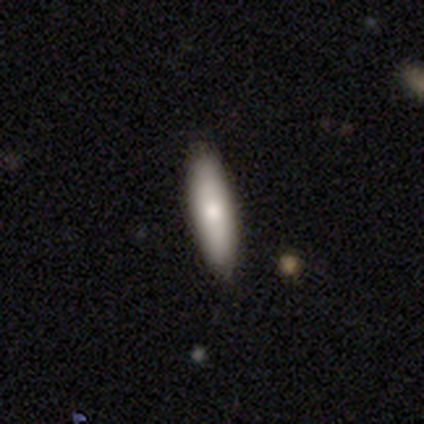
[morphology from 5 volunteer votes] Smooth or featured? smooth (100%)
How rounded? in between (60%)
Merging? none (100%)